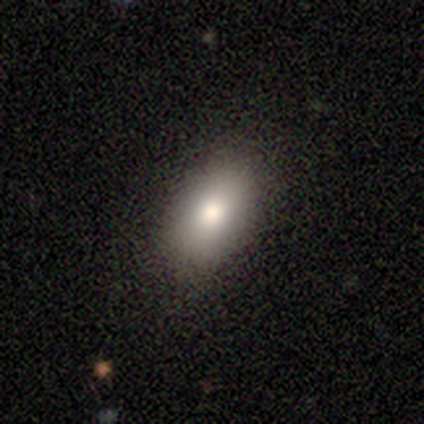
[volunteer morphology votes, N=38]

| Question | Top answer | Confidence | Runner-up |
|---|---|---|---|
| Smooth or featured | smooth | 74% | star or artifact (21%) |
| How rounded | in between | 96% | cigar-shaped (4%) |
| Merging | none | 90% | minor disturbance (7%) |